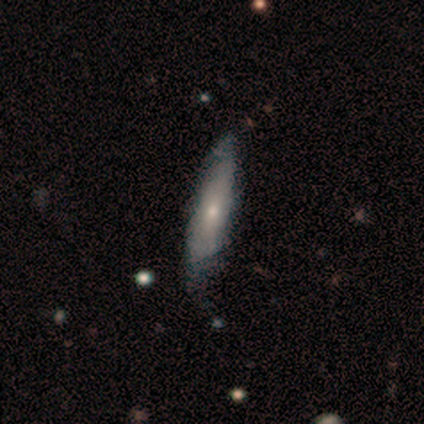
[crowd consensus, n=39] smooth-or-featured: smooth: 49% | featured or disk: 44% | star or artifact: 8%
  how-rounded: cigar-shaped: 84% | in between: 16% | round: 0%
  merging: none: 47% | minor disturbance: 25% | merger: 6% | major disturbance: 3%